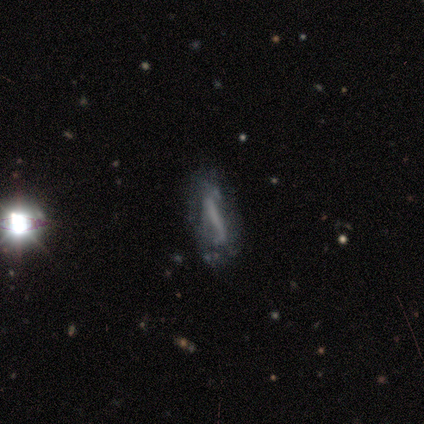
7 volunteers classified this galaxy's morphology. Volunteers were most divided on "bar" (2-way tie): strong: 40%, weak: 40%, no: 20%. More confident: smooth or featured — featured or disk (100%); spiral winding — loose (100%); spiral arms — yes (80%); edge-on disk — no (71%); bulge size — none (60%); merging — none (57%); spiral arm count — can't tell (50%).